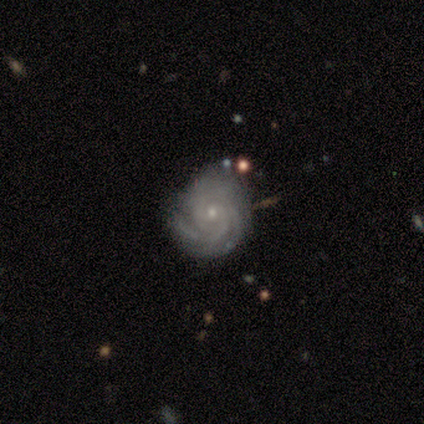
Overall: featured or disk (90%). Edge-on disk: no (97%). Bar: no (86%). Spiral arms: yes (100%). Spiral arm count: 3 (46%; can't tell 23%). Spiral winding: tight (83%). Bulge size: small (89%). Merging: none (68%).